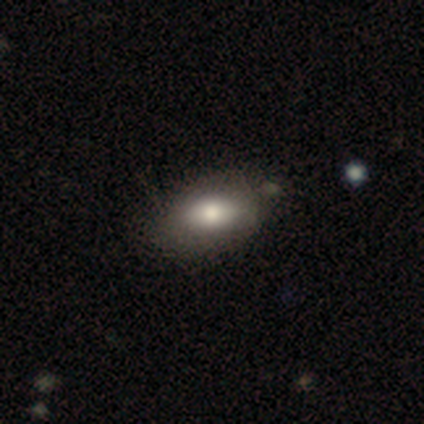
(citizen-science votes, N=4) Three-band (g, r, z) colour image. It shows a smooth galaxy with no disk features (75%) that is in between round and cigar-shaped (67%). Merging: none (100%).